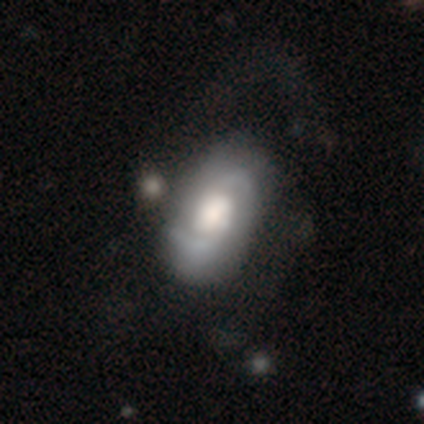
Smooth or featured?
  - featured or disk: 74% *
  - smooth: 20%
  - star or artifact: 5%
Edge-on disk?
  - no: 96% *
  - yes: 4%
Bar?
  - no: 61% *
  - weak: 32%
  - strong: 8%
Spiral arms?
  - yes: 91% *
  - no: 9%
Spiral winding?
  - medium: 43% *
  - tight: 28%
  - loose: 28%
Spiral arm count?
  - 2: 90% *
  - can't tell: 7%
  - 1: 3%
  - 3: 0%
  - 4: 0%
  - more than 4: 0%
Bulge size?
  - large: 50% *
  - moderate: 35%
  - small: 8%
  - dominant: 5%
  - none: 3%
Merging?
  - none: 58% *
  - major disturbance: 22%
  - minor disturbance: 19%
  - merger: 1%